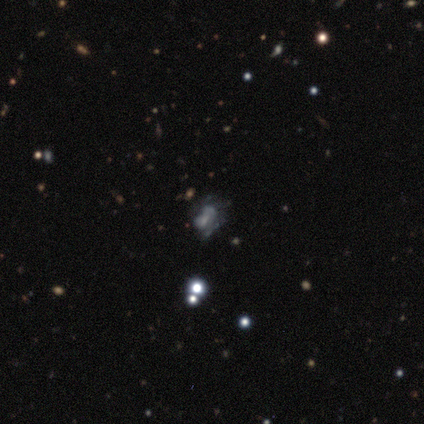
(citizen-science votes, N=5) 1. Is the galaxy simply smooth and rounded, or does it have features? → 40% smooth (tied), 40% star or artifact (tied), 20% featured or disk.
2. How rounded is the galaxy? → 100% in between, 0% round, 0% cigar-shaped.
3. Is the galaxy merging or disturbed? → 67% merger, 33% none, 0% minor disturbance, 0% major disturbance.